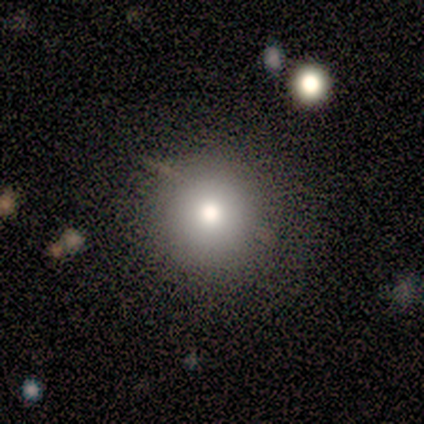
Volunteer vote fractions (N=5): smooth_or_featured: smooth (p=0.80) [alt: featured or disk p=0.20]
how_rounded: round (p=0.75) [alt: in between p=0.25]
merging: none (p=0.60) [alt: minor disturbance p=0.20]